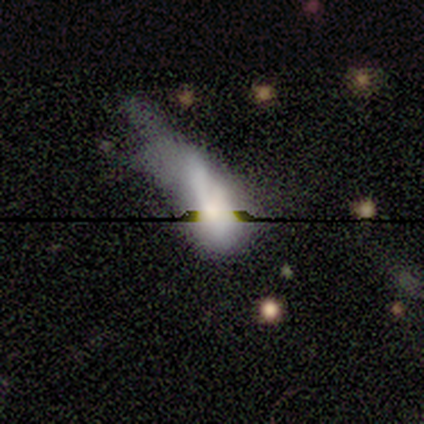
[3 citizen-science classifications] A star or artifact, not a galaxy (67%).